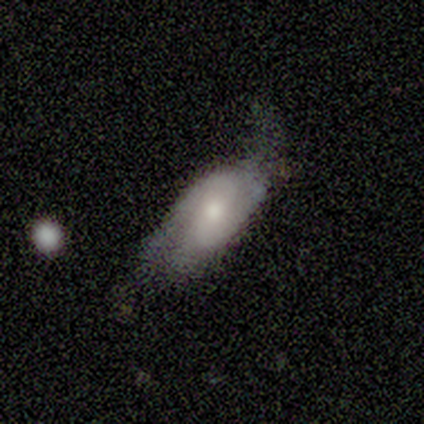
Smooth or featured? featured or disk (80%)
Edge-on disk? no (75%)
Bar? no (67%)
Spiral arms? yes (100%)
Spiral winding? tight (67%)
Spiral arm count? 2 (100%)
Bulge size? moderate (67%)
Merging? none (60%)